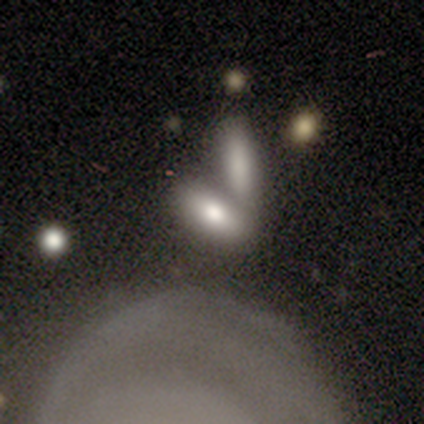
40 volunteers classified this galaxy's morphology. A smooth galaxy with no disk features (75%) that is in between round and cigar-shaped (70%).

Vote fractions:
- Smooth or featured? smooth: 75% / featured or disk: 22% / star or artifact: 2%
- How rounded? in between: 70% / cigar-shaped: 30% / round: 0%
- Merging? merger: 54% / none: 23% / major disturbance: 5% / minor disturbance: 3%